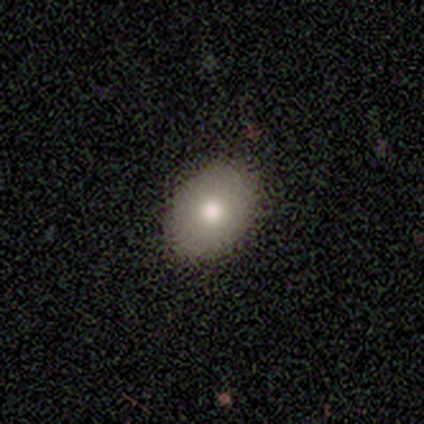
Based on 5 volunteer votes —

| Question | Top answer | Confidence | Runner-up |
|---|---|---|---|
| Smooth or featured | smooth | 60% | featured or disk (40%) |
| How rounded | in between | 100% | — |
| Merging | none | 100% | — |